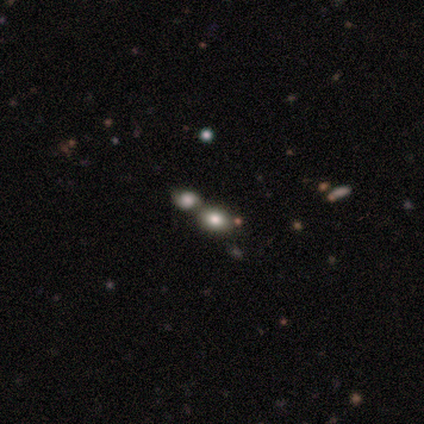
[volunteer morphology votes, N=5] Smooth or featured? smooth (100%)
How rounded? round (60%)
Merging? minor disturbance (40%)